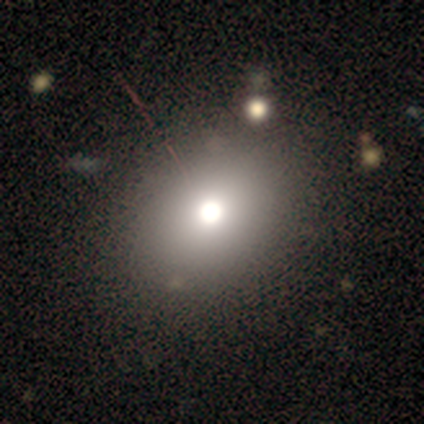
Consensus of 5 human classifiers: Morphology: type=featured or disk (60%); edge-on=no (67%); bar=no (100%); spiral arms=no (100%); bulge=dominant (50%, tied with small); merging=none (50%).